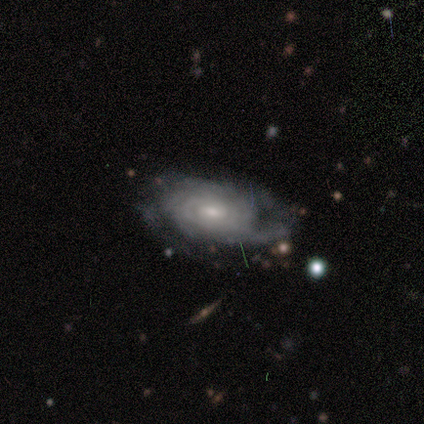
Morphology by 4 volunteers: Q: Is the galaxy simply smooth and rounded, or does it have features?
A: featured or disk — 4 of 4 (100%).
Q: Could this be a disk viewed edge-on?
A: no — 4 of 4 (100%).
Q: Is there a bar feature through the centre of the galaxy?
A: no — 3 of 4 (75%).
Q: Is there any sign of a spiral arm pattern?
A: yes — 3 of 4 (75%).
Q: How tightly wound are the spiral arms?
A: tight — 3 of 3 (100%).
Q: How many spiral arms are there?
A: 2 — 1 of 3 (33%, tied with more than 4 and can't tell).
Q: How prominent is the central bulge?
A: moderate — 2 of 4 (50%).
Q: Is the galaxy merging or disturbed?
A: none — 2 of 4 (50%).